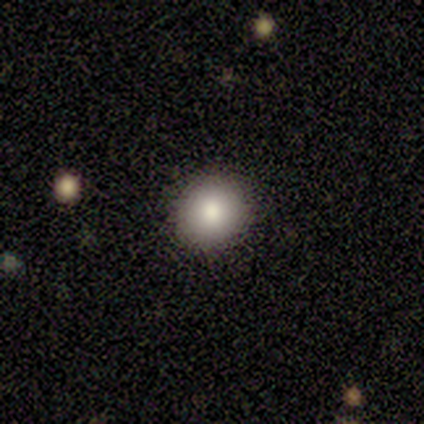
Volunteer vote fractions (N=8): smooth-or-featured: smooth: 75% | featured or disk: 12% | star or artifact: 12%
  how-rounded: round: 100% | in between: 0% | cigar-shaped: 0%
  merging: none: 100% | minor disturbance: 0% | major disturbance: 0% | merger: 0%